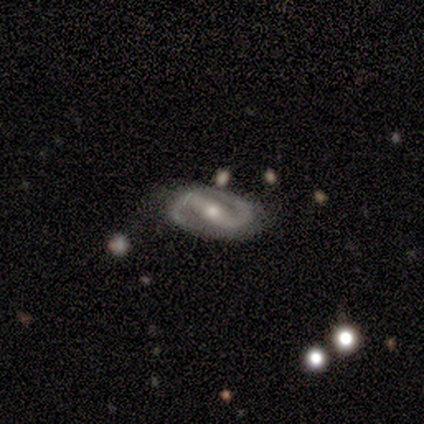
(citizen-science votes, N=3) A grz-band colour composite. It shows a featured or disk galaxy (100%) with a weak bar (100%), 2 (100%) tight (50%, tied with medium) spiral arms (67%) and a moderate central bulge (100%). Merging: none (100%).